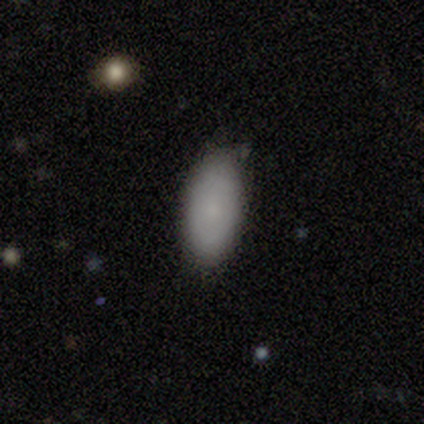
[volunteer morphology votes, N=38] smooth_or_featured: smooth (p=0.76) [alt: featured or disk p=0.21]
how_rounded: in between (p=0.93) [alt: cigar-shaped p=0.07]
merging: none (p=0.70) [alt: minor disturbance p=0.24]